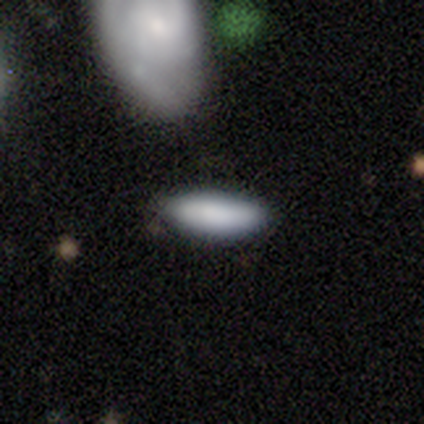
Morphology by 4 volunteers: Q: Smooth or featured?
A: smooth (100%)
Q: How rounded?
A: in between (50%); tied with: cigar-shaped (50%)
Q: Merging?
A: none (100%)